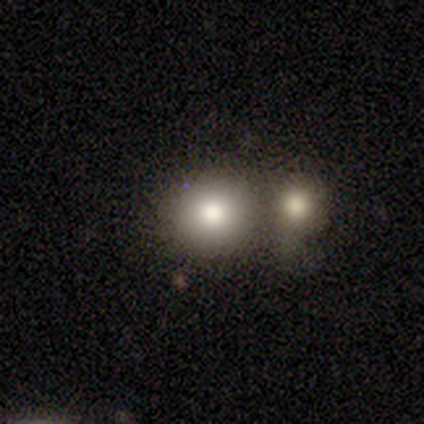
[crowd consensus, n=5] smooth 80%, star or artifact 20%, featured or disk 0%. Down the decision tree: how rounded — round (75%); merging — none (75%).